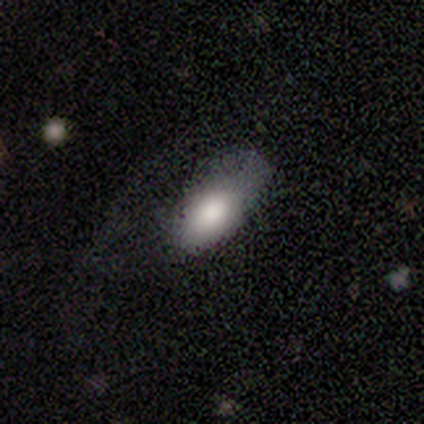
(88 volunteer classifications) Smooth or featured: smooth — 78% (featured or disk — 16%)
How rounded: in between — 93% (cigar-shaped — 7%)
Merging: major disturbance — 41% (none — 34%)